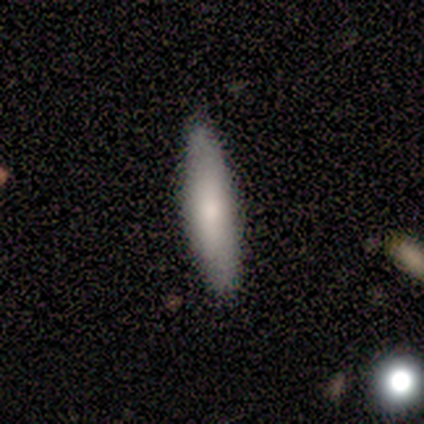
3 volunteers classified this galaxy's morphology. Smooth or featured?
  - smooth: 100% *
  - featured or disk: 0%
  - star or artifact: 0%
How rounded?
  - cigar-shaped: 100% *
  - round: 0%
  - in between: 0%
Merging?
  - none: 67% *
  - minor disturbance: 33%
  - major disturbance: 0%
  - merger: 0%